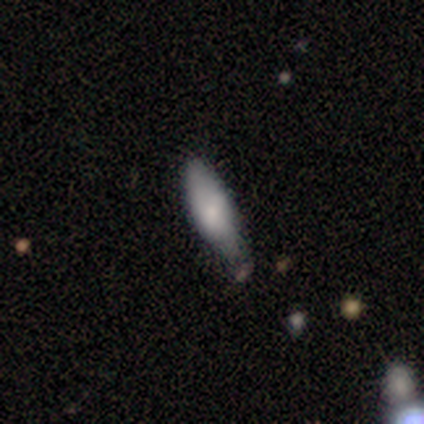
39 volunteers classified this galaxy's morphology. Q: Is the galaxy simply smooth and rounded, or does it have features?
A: smooth — 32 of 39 (82%).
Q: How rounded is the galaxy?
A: in between — 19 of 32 (59%).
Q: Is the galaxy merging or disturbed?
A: none — 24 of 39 (62%).